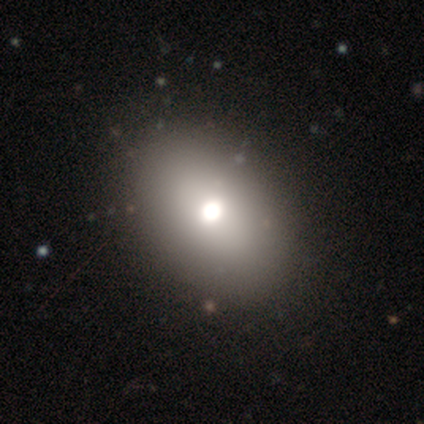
This appears to be a smooth galaxy with no disk features (60%) that is in between round and cigar-shaped (100%). Merging: none (100%).